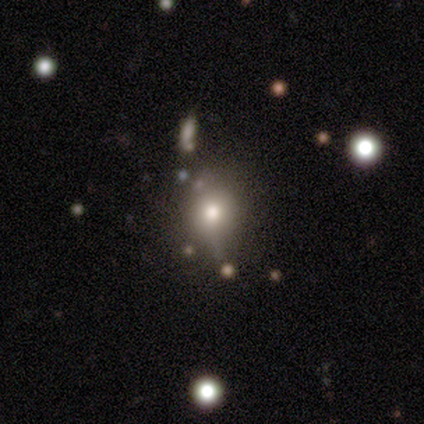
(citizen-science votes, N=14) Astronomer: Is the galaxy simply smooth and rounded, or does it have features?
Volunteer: smooth — 57%.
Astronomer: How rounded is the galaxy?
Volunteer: round — 62%.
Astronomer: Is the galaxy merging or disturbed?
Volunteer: none — 91%.